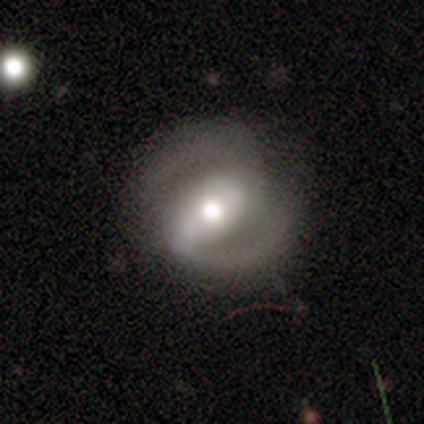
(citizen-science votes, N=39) featured or disk 92%, smooth 8%, star or artifact 0%. Down the decision tree: edge-on disk — no (94%); bar — strong (44%); spiral arms — yes (97%); spiral arm count — 2 (97%); spiral winding — medium (58%); bulge size — moderate (53%); merging — none (77%).